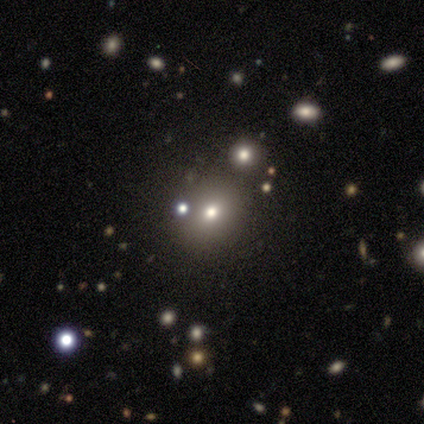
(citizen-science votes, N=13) This is possibly a smooth galaxy (54%). How rounded: likely round (71%). Merging: likely none (73%).